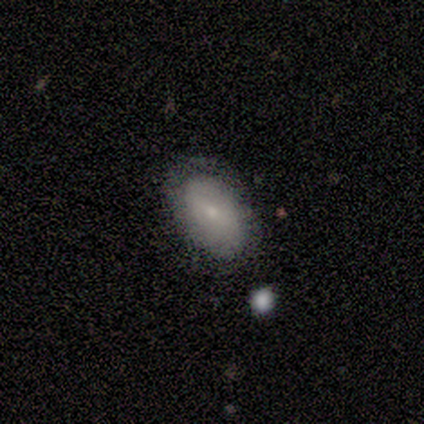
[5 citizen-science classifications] This appears to be a smooth galaxy with no disk features (80%) that is in between round and cigar-shaped (100%). Merging: none (100%).